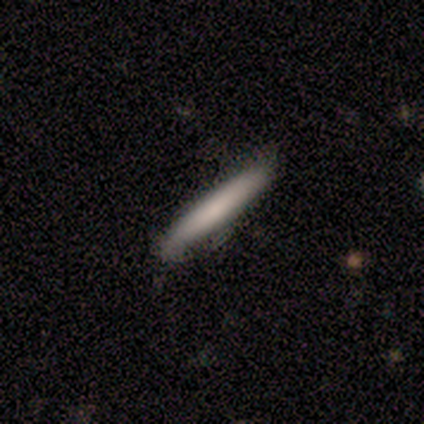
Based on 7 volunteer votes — Smooth or featured?
  - smooth: 86% *
  - featured or disk: 14%
  - star or artifact: 0%
How rounded?
  - cigar-shaped: 100% *
  - round: 0%
  - in between: 0%
Merging?
  - none: 71% *
  - minor disturbance: 29%
  - major disturbance: 0%
  - merger: 0%